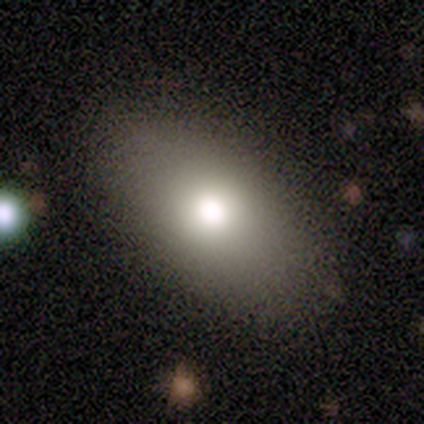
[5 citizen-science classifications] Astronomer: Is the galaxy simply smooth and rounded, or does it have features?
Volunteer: smooth — 100%.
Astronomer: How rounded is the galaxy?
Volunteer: in between — 80%.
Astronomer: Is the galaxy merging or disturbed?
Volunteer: none — 100%.